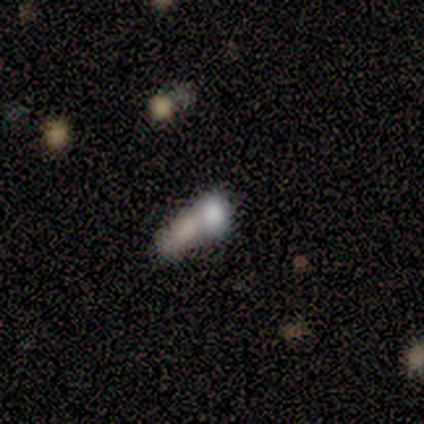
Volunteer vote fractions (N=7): Morphology: type=smooth (71%); roundness=round (40%, tied with in between); merging=merger (86%).